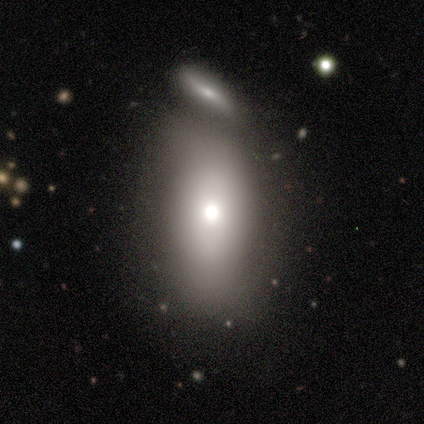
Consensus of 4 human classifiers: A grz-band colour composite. It shows a smooth galaxy with no disk features (50%) that is in between round and cigar-shaped (100%). Merging: none (33%, tied with minor disturbance and merger).